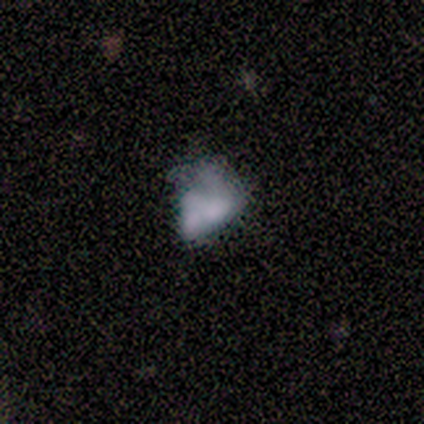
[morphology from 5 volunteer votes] type=featured or disk (80%); edge-on=no (100%); bar=no (100%); spiral arms=no (100%); bulge=none (50%); merging=none (40%, tied with merger).